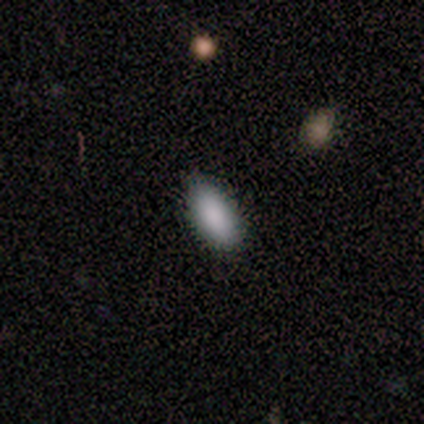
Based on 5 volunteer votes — A smooth galaxy with no disk features (80%) that is in between round and cigar-shaped (75%).

Vote fractions:
- Smooth or featured? smooth: 80% / featured or disk: 20% / star or artifact: 0%
- How rounded? in between: 75% / cigar-shaped: 25% / round: 0%
- Merging? minor disturbance: 60% / none: 40% / major disturbance: 0% / merger: 0%